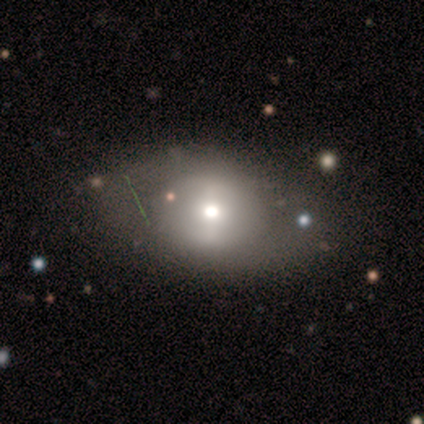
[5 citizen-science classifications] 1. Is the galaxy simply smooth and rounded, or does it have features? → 60% smooth, 40% featured or disk, 0% star or artifact.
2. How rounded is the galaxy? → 67% in between, 33% round, 0% cigar-shaped.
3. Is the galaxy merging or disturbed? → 100% none, 0% minor disturbance, 0% major disturbance, 0% merger.